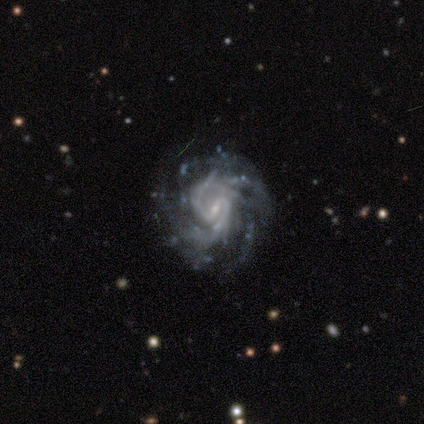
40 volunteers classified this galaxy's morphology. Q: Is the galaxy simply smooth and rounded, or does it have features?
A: featured or disk — 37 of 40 (92%).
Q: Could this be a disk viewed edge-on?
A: no — 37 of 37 (100%).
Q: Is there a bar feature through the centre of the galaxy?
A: weak — 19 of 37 (51%).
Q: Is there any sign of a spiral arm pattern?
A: yes — 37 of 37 (100%).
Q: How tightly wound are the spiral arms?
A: tight — 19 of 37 (51%).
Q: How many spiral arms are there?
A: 2 — 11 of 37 (30%).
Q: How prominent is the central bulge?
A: small — 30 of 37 (81%).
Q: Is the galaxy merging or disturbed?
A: none — 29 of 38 (76%).